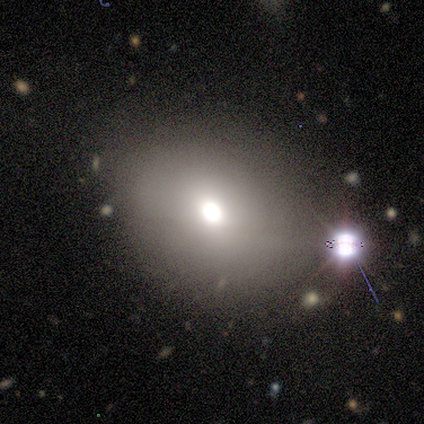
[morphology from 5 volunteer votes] Overall: smooth (60%; star or artifact 40%). How rounded: round (67%; in between 33%). Merging: none (67%; minor disturbance 33%).